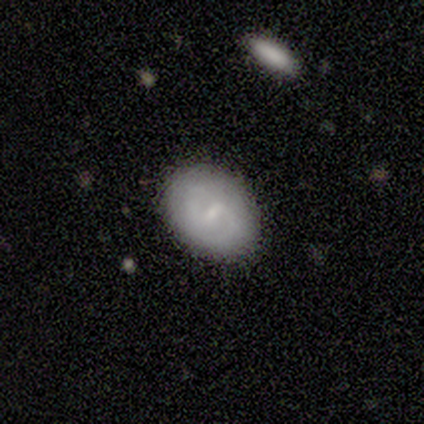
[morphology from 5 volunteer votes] smooth-or-featured: featured or disk: 80% | smooth: 20% | star or artifact: 0%
  disk-edge-on: no: 100% | yes: 0%
    bar: weak: 50% | strong: 25% | no: 25%
    has-spiral-arms: yes: 75% | no: 25%
      spiral-winding: medium: 100% | tight: 0% | loose: 0%
      spiral-arm-count: 1: 33% (tied) | 2: 33% (tied) | can't tell: 33% (tied) | 3: 0% | 4: 0% | more than 4: 0%
    bulge-size: small: 100% | dominant: 0% | large: 0% | moderate: 0% | none: 0%
  merging: none: 100% | minor disturbance: 0% | major disturbance: 0% | merger: 0%